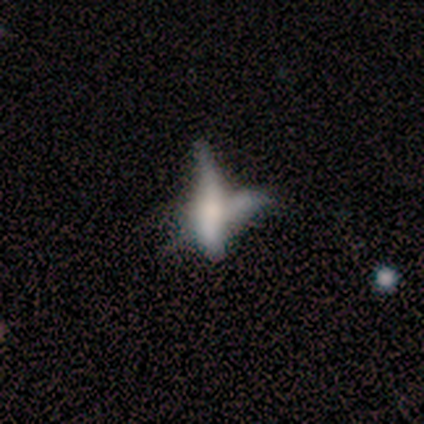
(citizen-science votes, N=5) Smooth or featured? 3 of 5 (60%) said featured or disk. Edge-on disk? 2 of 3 (67%) said yes. Edge-on bulge? 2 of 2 (100%) said rounded. Merging? 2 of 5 (40%, tied with merger) said none.